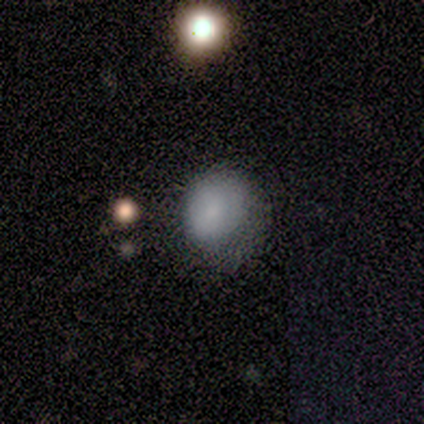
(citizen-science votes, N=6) A smooth galaxy with no disk features (100%) that is in between round and cigar-shaped (67%).

Vote fractions:
- Smooth or featured? smooth: 100% / featured or disk: 0% / star or artifact: 0%
- How rounded? in between: 67% / round: 33% / cigar-shaped: 0%
- Merging? minor disturbance: 67% / none: 17% / major disturbance: 17% / merger: 0%